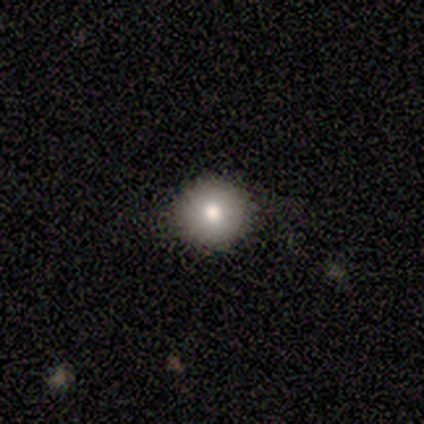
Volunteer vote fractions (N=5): This is likely a smooth galaxy (60%). How rounded: clearly round (100%). Merging: clearly none (100%).